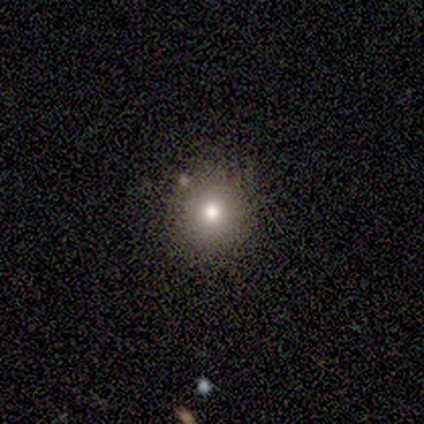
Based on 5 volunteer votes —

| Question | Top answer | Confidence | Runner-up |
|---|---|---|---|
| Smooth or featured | smooth | 60% | star or artifact (40%) |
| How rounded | round | 100% | — |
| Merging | none | 100% | — |